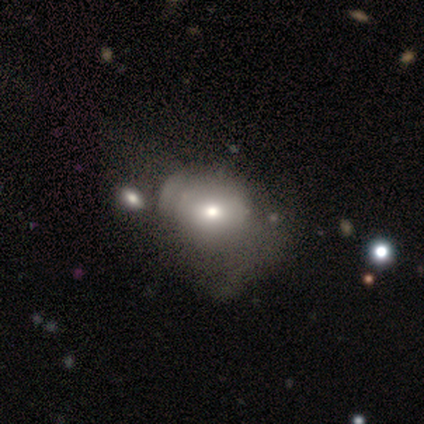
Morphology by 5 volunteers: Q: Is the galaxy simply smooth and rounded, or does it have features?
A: featured or disk — 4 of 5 (80%).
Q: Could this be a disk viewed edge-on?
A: no — 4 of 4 (100%).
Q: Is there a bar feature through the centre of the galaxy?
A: no — 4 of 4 (100%).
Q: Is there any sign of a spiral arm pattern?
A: no — 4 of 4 (100%).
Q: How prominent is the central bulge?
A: moderate — 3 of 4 (75%).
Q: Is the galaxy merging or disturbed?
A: major disturbance — 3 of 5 (60%).